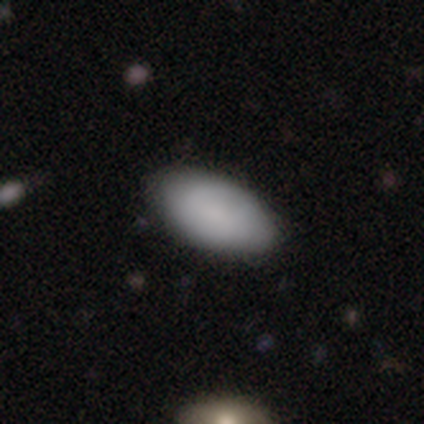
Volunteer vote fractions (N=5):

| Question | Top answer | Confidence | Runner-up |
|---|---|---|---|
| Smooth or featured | smooth | 100% | — |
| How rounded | in between | 100% | — |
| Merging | none | 100% | — |